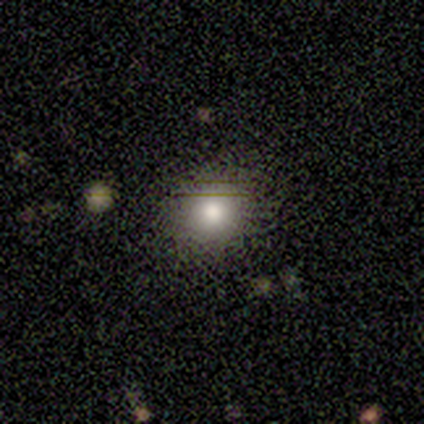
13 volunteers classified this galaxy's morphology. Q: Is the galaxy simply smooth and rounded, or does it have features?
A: smooth — 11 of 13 (85%).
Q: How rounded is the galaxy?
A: round — 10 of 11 (91%).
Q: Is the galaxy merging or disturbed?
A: none — 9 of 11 (82%).